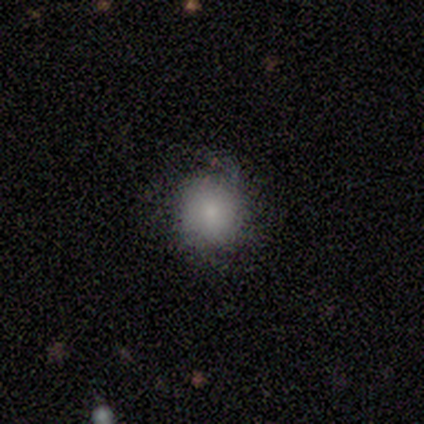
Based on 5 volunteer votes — smooth 60%, featured or disk 40%, star or artifact 0%. Down the decision tree: how rounded — round (100%); merging — minor disturbance (100%).